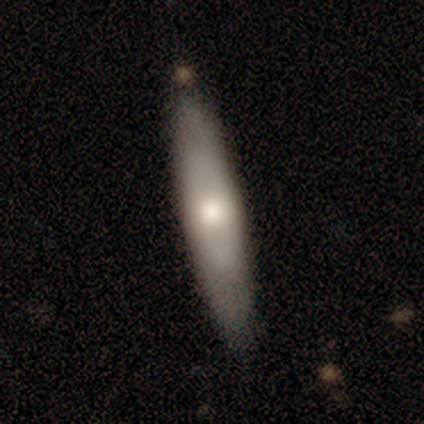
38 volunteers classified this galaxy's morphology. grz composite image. It shows a featured or disk galaxy (47%) viewed edge-on (56%) with a rounded central bulge (100%). Merging: none (66%).